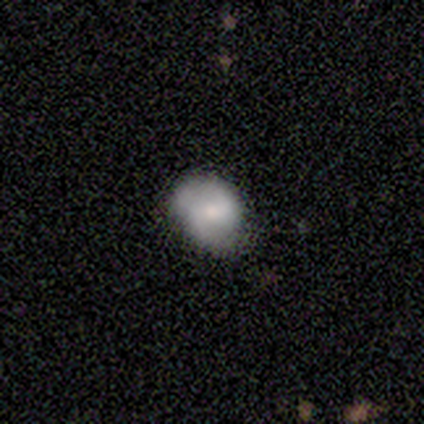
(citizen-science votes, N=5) A smooth galaxy with no disk features (80%) that is round (75%).

Vote fractions:
- Smooth or featured? smooth: 80% / featured or disk: 20% / star or artifact: 0%
- How rounded? round: 75% / in between: 25% / cigar-shaped: 0%
- Merging? none: 60% / minor disturbance: 20% / major disturbance: 20% / merger: 0%